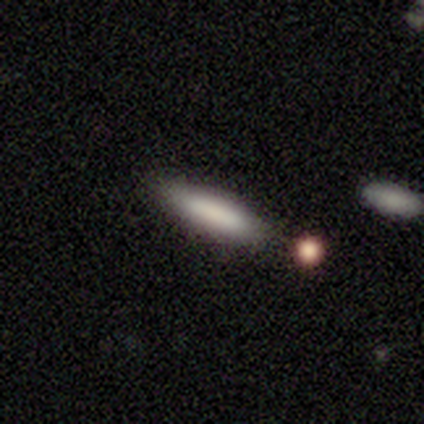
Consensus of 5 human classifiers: Morphology: type=smooth (60%); roundness=cigar-shaped (100%); merging=none (50%).